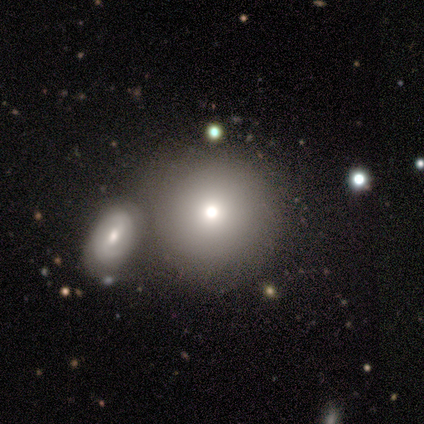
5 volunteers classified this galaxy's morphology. A smooth galaxy with no disk features (80%) that is round (100%). Merging: none (75%).